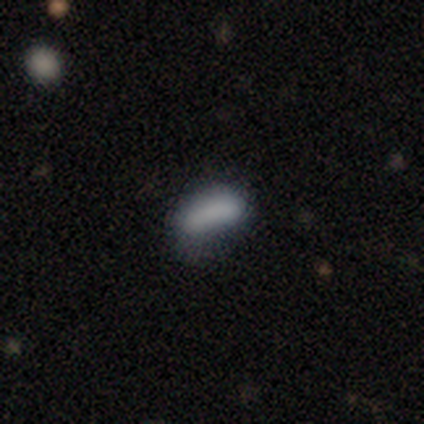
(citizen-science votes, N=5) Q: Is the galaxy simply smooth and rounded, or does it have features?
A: smooth — 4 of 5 (80%).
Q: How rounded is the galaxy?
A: in between — 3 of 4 (75%).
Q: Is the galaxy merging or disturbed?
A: minor disturbance — 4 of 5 (80%).